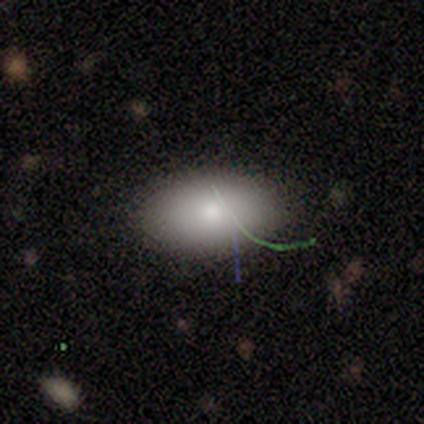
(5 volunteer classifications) This appears to be a smooth galaxy with no disk features (80%) that is in between round and cigar-shaped (100%). Merging: none (100%).